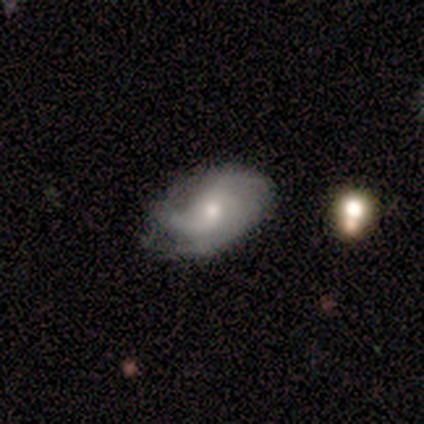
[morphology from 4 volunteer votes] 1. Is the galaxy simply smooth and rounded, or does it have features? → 75% featured or disk, 25% star or artifact, 0% smooth.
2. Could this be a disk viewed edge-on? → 100% no, 0% yes.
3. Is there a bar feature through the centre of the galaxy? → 67% no, 33% weak, 0% strong.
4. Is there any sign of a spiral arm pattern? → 100% yes, 0% no.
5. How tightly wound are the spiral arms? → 33% tight (tied), 33% medium (tied), 33% loose (tied).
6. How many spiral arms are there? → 67% 3, 33% 2, 0% 1, 0% 4, 0% more than 4, 0% can't tell.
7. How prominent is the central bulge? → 100% small, 0% dominant, 0% large, 0% moderate, 0% none.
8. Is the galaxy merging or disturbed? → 67% none, 33% minor disturbance, 0% major disturbance, 0% merger.